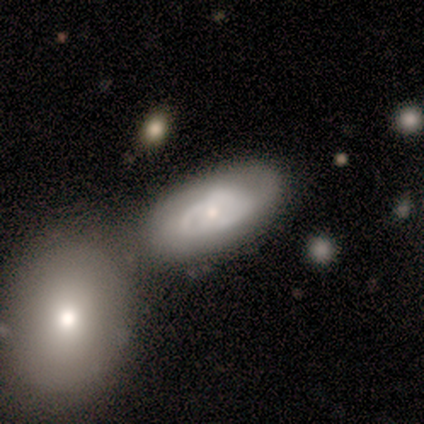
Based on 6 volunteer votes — Morphology: type=featured or disk (83%); edge-on=no (100%); bar=no (80%); spiral arms=yes (80%); winding=tight (50%, tied with medium); arm count=2 (50%, tied with can't tell); bulge=small (60%); merging=none (83%).